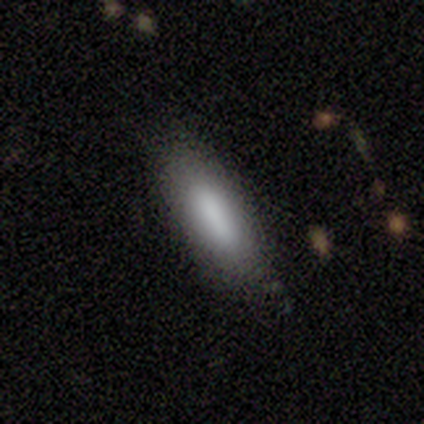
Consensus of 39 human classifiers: Smooth or featured: smooth — 72% (featured or disk — 21%)
How rounded: in between — 54% (cigar-shaped — 46%)
Merging: none — 81% (minor disturbance — 17%)